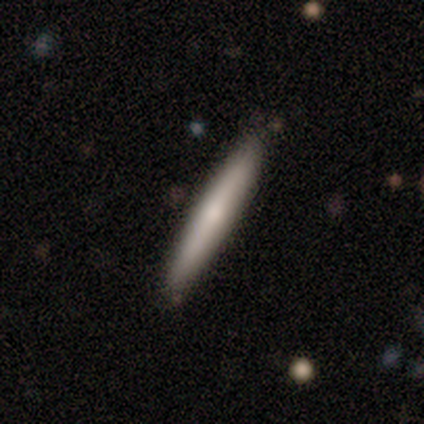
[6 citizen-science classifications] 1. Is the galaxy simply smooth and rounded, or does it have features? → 50% smooth (tied), 50% featured or disk (tied), 0% star or artifact.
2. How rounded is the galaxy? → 100% cigar-shaped, 0% round, 0% in between.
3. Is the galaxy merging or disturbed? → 83% none, 17% minor disturbance, 0% major disturbance, 0% merger.